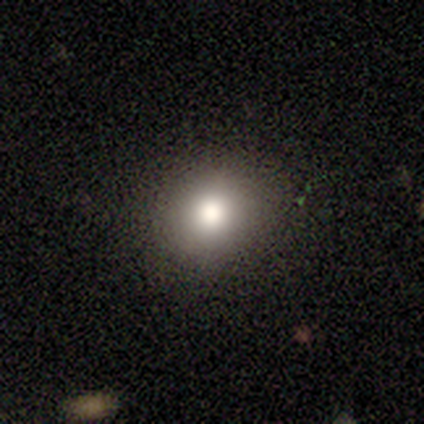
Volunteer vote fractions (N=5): This appears to be a smooth galaxy with no disk features (100%) that is round (100%). Merging: none (100%).